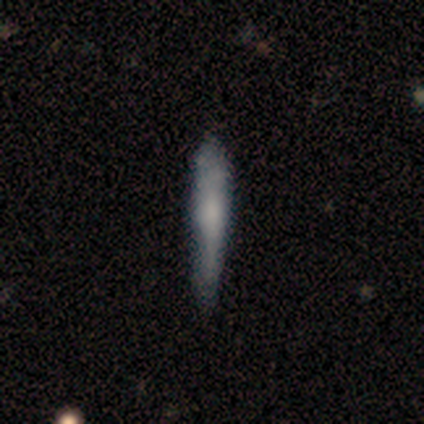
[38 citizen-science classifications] A smooth galaxy with no disk features (55%) that is cigar-shaped (100%).

Vote fractions:
- Smooth or featured? smooth: 55% / featured or disk: 37% / star or artifact: 8%
- How rounded? cigar-shaped: 100% / round: 0% / in between: 0%
- Merging? none: 60% / minor disturbance: 26% / merger: 9% / major disturbance: 6%